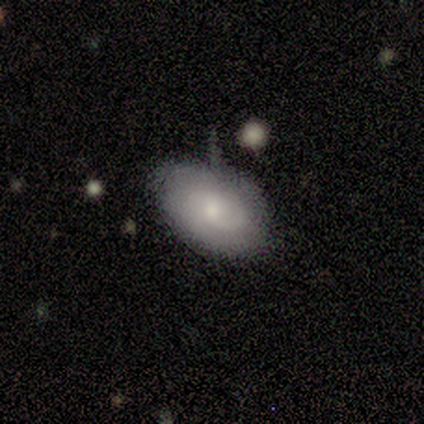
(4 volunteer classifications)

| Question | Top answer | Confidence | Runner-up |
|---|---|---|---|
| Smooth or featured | smooth | 100% | — |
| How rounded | in between | 100% | — |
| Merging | minor disturbance | 50% | none (25%) |